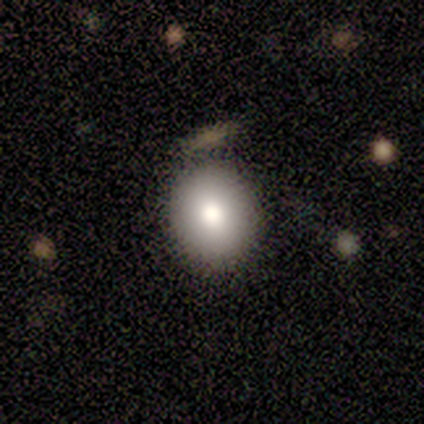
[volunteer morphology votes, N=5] Smooth or featured? smooth (40%, tied with featured or disk)
How rounded? round (100%)
Merging? none (100%)